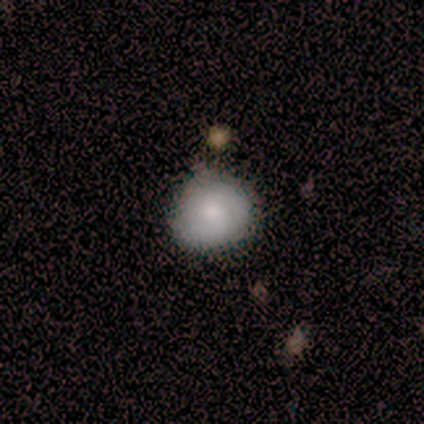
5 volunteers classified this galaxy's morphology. type=smooth (60%); roundness=round (67%); merging=none (100%).